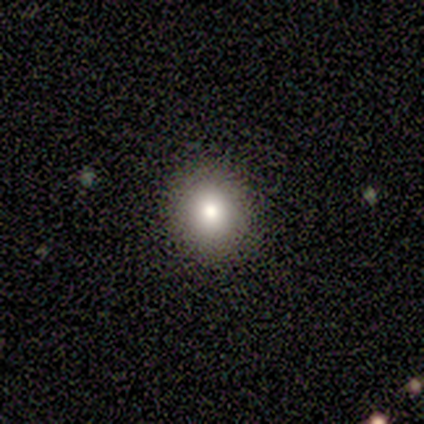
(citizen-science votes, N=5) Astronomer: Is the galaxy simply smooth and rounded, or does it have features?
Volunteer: smooth — 40%, tied with star or artifact at 40%.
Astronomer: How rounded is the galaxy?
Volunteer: round — 100%.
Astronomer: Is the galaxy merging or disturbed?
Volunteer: none — 100%.